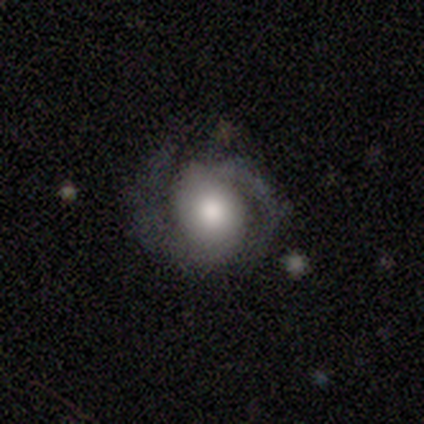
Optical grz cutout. It shows a featured or disk galaxy (60%) with a strong bar (33%, tied with weak and no), 2 (100%) medium (67%) spiral arms (100%) and a large central bulge (67%). Merging: none (67%).